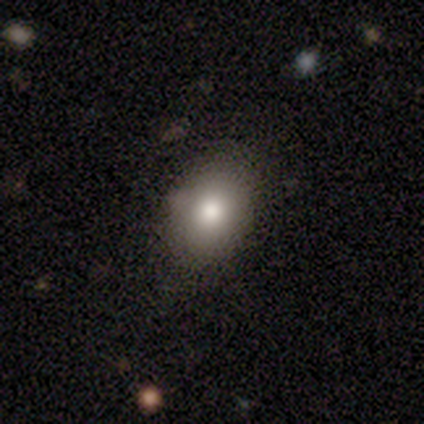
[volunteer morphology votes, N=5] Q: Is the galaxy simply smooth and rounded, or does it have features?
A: smooth — 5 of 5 (100%).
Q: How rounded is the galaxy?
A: in between — 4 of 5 (80%).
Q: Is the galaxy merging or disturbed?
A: none — 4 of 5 (80%).